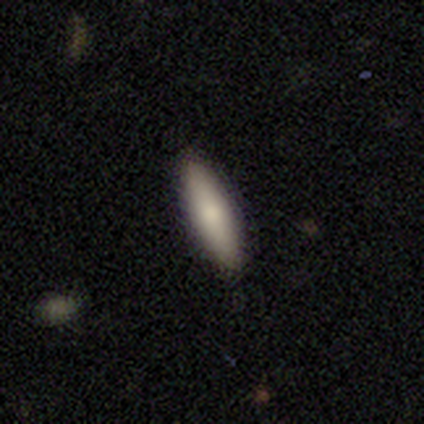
smooth-or-featured: smooth: 71% | featured or disk: 29% | star or artifact: 0%
  how-rounded: cigar-shaped: 80% | in between: 20% | round: 0%
  merging: none: 100% | minor disturbance: 0% | major disturbance: 0% | merger: 0%